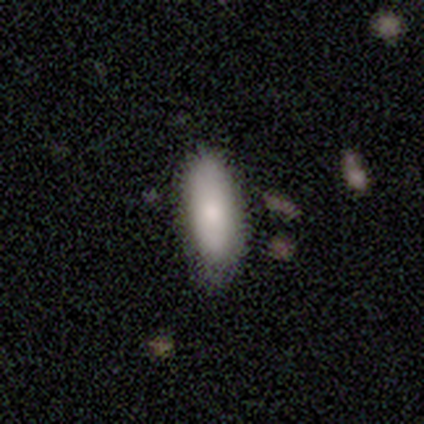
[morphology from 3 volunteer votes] Smooth or featured?
  - featured or disk: 67% *
  - smooth: 33%
  - star or artifact: 0%
Edge-on disk?
  - no: 100% *
  - yes: 0%
Bar?
  - no: 100% *
  - strong: 0%
  - weak: 0%
Spiral arms?
  - yes: 50% * (tied)
  - no: 50% * (tied)
Spiral winding?
  - medium: 100% *
  - tight: 0%
  - loose: 0%
Spiral arm count?
  - can't tell: 100% *
  - 1: 0%
  - 2: 0%
  - 3: 0%
  - 4: 0%
  - more than 4: 0%
Bulge size?
  - moderate: 50% * (tied)
  - small: 50% * (tied)
  - dominant: 0%
  - large: 0%
  - none: 0%
Merging?
  - none: 67% *
  - minor disturbance: 33%
  - major disturbance: 0%
  - merger: 0%